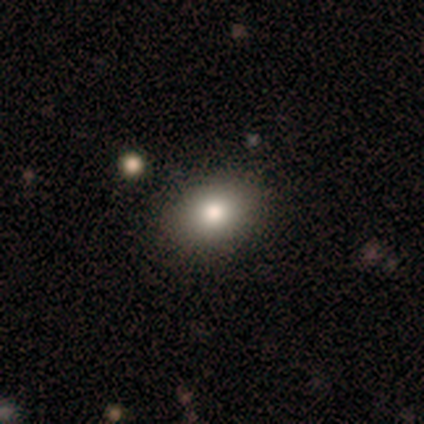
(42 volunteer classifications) smooth_or_featured: smooth (p=0.79) [alt: star or artifact p=0.14]
how_rounded: in between (p=0.79) [alt: round p=0.21]
merging: none (p=0.92) [alt: minor disturbance p=0.06]